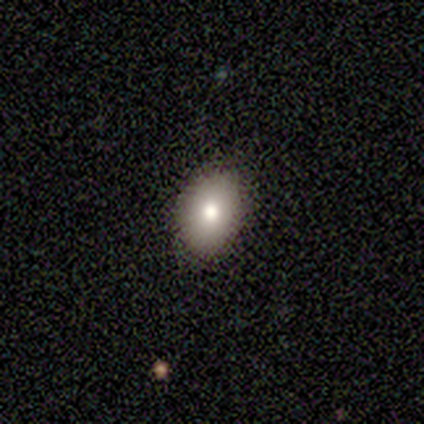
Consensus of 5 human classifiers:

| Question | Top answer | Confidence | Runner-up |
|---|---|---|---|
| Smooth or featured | smooth | 80% | featured or disk (20%) |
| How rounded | in between | 100% | — |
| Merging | none | 100% | — |